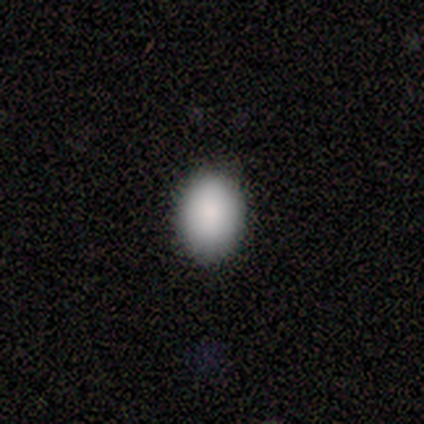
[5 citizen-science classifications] Q: Smooth or featured?
A: smooth (100%)
Q: How rounded?
A: in between (100%)
Q: Merging?
A: none (100%)